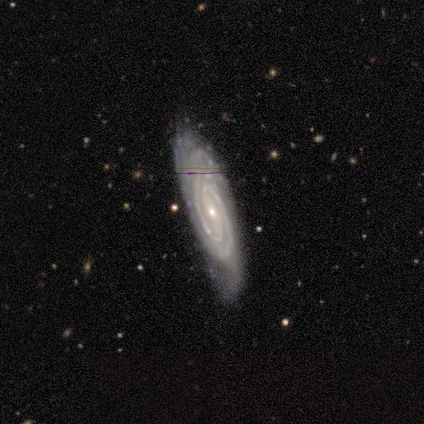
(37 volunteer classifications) smooth-or-featured: featured or disk: 92% | smooth: 5% | star or artifact: 3%
  disk-edge-on: no: 88% | yes: 12%
    bar: no: 50% | weak: 43% | strong: 7%
    has-spiral-arms: yes: 100% | no: 0%
      spiral-winding: tight: 90% | medium: 7% | loose: 3%
      spiral-arm-count: 2: 67% | can't tell: 27% | 3: 7% | 1: 0% | 4: 0% | more than 4: 0%
    bulge-size: small: 83% | moderate: 17% | dominant: 0% | large: 0% | none: 0%
  merging: none: 67% | minor disturbance: 31% | merger: 3% | major disturbance: 0%